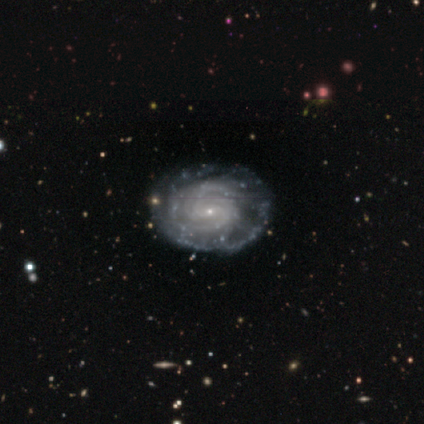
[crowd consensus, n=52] smooth_or_featured: featured or disk (p=0.87) [alt: smooth p=0.12]
disk_edge_on: no (p=0.91) [alt: yes p=0.09]
bar: weak (p=0.49) [alt: no p=0.41]
has_spiral_arms: yes (p=0.90) [alt: no p=0.10]
spiral_winding: tight (p=0.54) [alt: medium p=0.35]
spiral_arm_count: 2 (p=0.43) [alt: can't tell p=0.32]
bulge_size: small (p=0.88) [alt: moderate p=0.07]
merging: none (p=0.75) [alt: minor disturbance p=0.16]